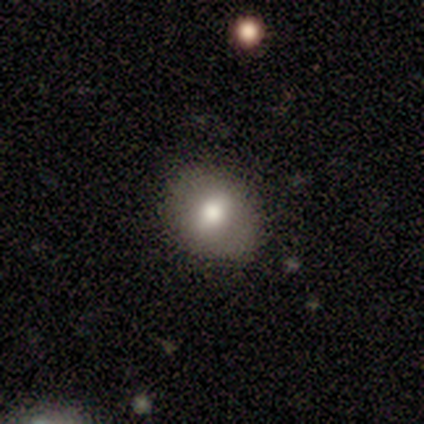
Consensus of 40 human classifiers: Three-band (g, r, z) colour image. It shows a smooth galaxy with no disk features (70%) that is round (82%). Merging: none (82%).